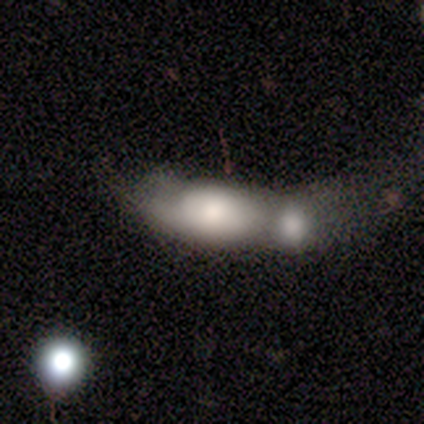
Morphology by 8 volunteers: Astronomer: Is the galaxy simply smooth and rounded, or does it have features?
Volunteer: smooth — 62%.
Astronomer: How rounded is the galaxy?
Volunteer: in between — 100%.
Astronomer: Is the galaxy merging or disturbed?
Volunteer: merger — 100%.